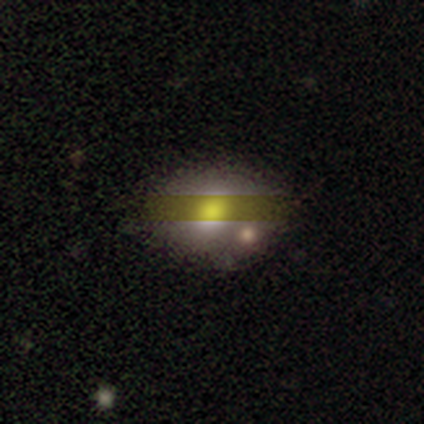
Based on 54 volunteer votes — A smooth galaxy with no disk features (57%) that is in between round and cigar-shaped (77%).

Vote fractions:
- Smooth or featured? smooth: 57% / star or artifact: 26% / featured or disk: 17%
- How rounded? in between: 77% / round: 23% / cigar-shaped: 0%
- Merging? none: 55% / minor disturbance: 25% / merger: 15% / major disturbance: 5%